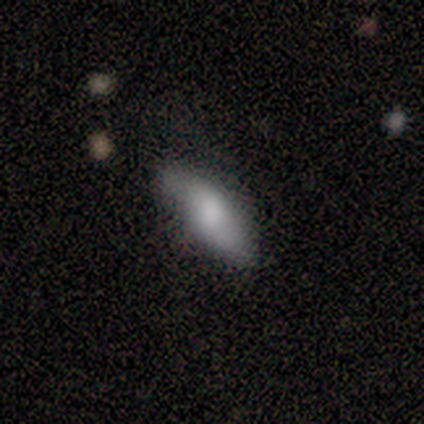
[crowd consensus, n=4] Morphology: type=smooth (75%); roundness=in between (100%); merging=minor disturbance (50%).